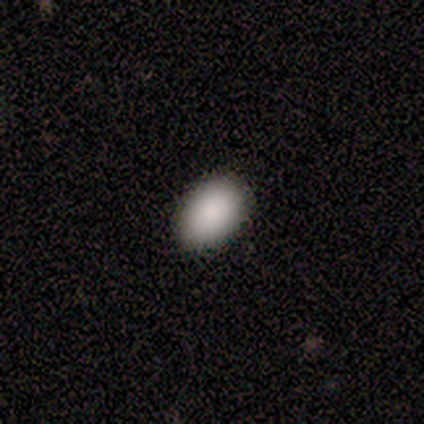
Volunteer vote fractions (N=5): A smooth galaxy with no disk features (80%) that is in between round and cigar-shaped (75%). Merging: none (100%).